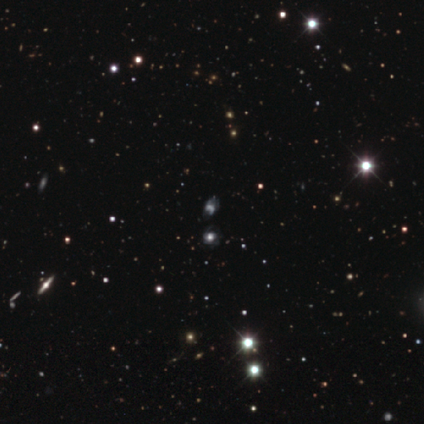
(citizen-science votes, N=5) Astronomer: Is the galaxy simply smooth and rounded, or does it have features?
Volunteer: star or artifact — 60%.